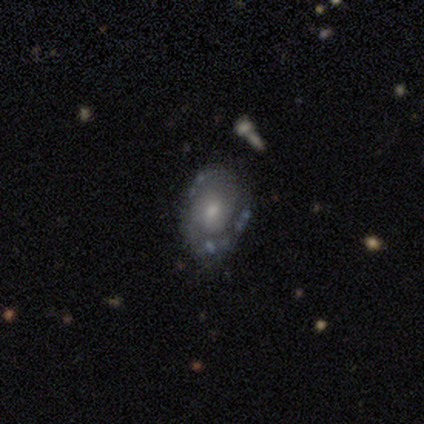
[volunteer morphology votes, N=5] Smooth or featured: featured or disk — 100%
Edge-on disk: no — 80% (yes — 20%)
Bar: no — 100%
Spiral arms: yes — 50% (tied with no — 50%)
Spiral winding: tight — 50% (tied with loose — 50%)
Spiral arm count: can't tell — 100%
Bulge size: moderate — 75% (small — 25%)
Merging: none — 100%